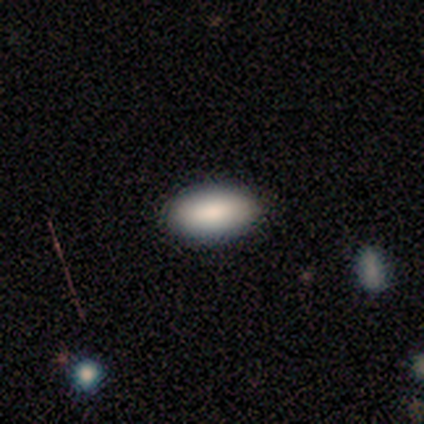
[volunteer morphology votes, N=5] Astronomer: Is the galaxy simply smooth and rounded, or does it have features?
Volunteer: smooth — 80%.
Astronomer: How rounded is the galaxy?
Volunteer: in between — 100%.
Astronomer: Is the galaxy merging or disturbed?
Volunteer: none — 80%.